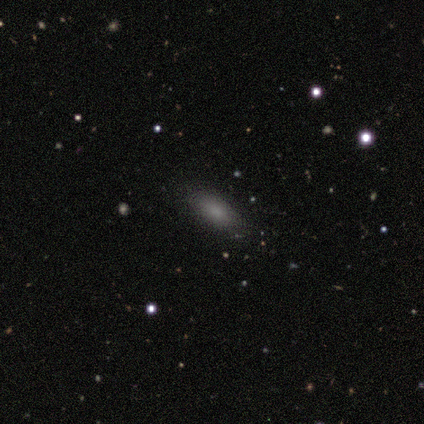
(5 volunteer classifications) Smooth or featured: smooth — 80% (featured or disk — 20%)
How rounded: in between — 75% (cigar-shaped — 25%)
Merging: none — 60% (minor disturbance — 20%)